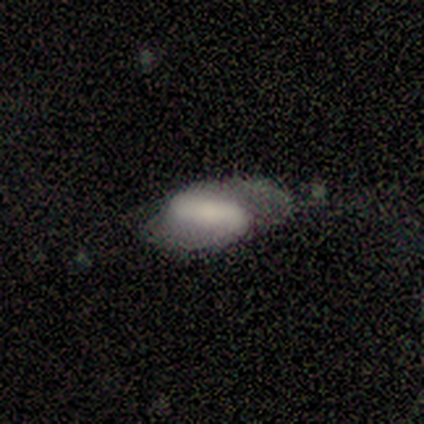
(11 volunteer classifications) This is possibly a featured or disk galaxy (55%). It is clearly not viewed edge-on (100%). Bar: possibly strong (50%). Spiral arm pattern: clearly yes (83%). Spiral arm count: clearly 2 (80%). Spiral winding: clearly loose (80%). Central bulge: marginally large (33%, tied with moderate). Merging: marginally major disturbance (40%).